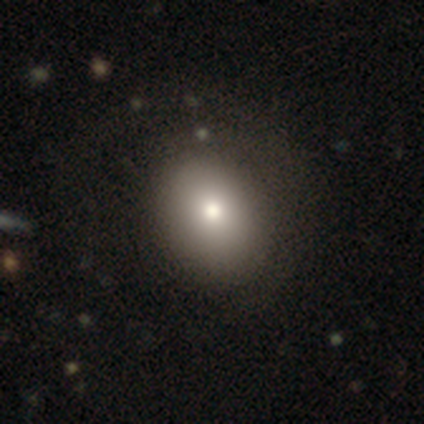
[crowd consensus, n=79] Overall: smooth (80%). How rounded: in between (54%; round 46%). Merging: none (33%; minor disturbance 12%).